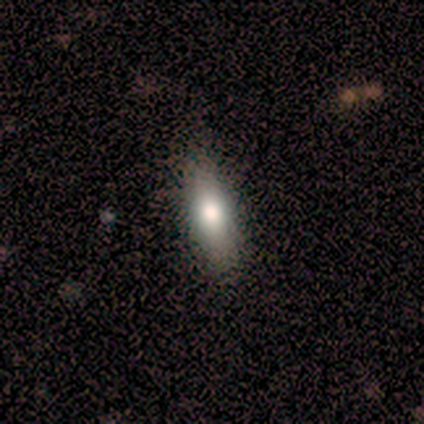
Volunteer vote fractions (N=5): Smooth or featured? 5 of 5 (100%) said smooth. How rounded? 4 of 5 (80%) said in between. Merging? 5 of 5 (100%) said none.